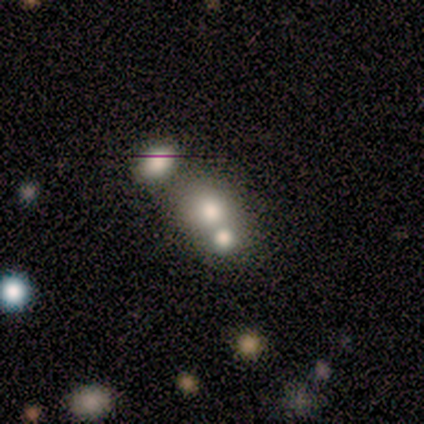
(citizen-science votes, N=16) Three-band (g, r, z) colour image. It shows a smooth galaxy with no disk features (62%) that is round (80%). Merging: none (50%).